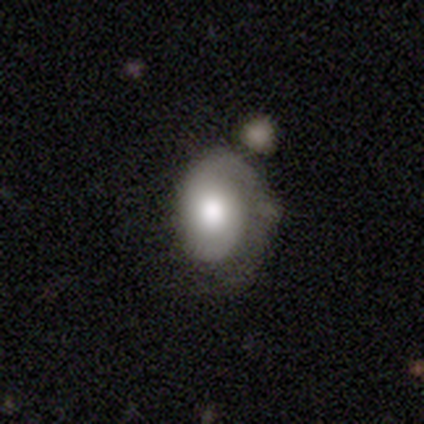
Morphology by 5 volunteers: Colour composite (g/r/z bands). It shows a smooth galaxy with no disk features (80%) that is in between round and cigar-shaped (100%). Merging: major disturbance (40%).